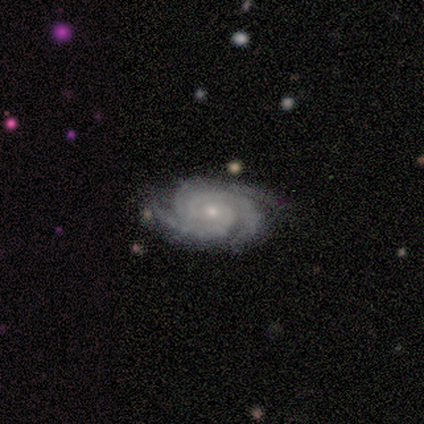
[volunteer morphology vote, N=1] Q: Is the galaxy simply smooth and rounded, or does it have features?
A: featured or disk — 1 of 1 (100%).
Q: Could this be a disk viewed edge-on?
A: no — 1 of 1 (100%).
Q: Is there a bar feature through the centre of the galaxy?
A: no — 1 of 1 (100%).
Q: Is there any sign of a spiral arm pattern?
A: yes — 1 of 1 (100%).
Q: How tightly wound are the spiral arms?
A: medium — 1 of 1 (100%).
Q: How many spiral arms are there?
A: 3 — 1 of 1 (100%).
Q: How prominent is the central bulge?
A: moderate — 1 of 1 (100%).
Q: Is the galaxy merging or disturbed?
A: minor disturbance — 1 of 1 (100%).